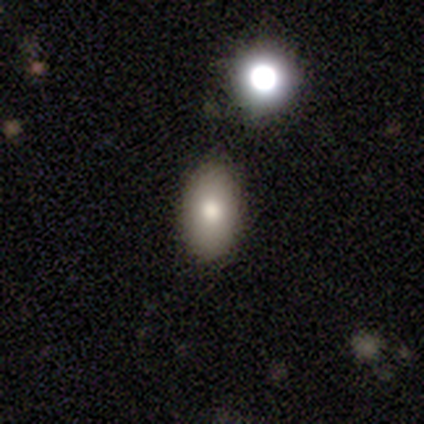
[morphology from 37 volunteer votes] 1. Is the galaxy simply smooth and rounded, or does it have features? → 78% smooth, 14% featured or disk, 8% star or artifact.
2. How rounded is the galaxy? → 90% in between, 7% cigar-shaped, 3% round.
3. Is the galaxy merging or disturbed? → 91% none, 6% minor disturbance, 3% major disturbance, 0% merger.